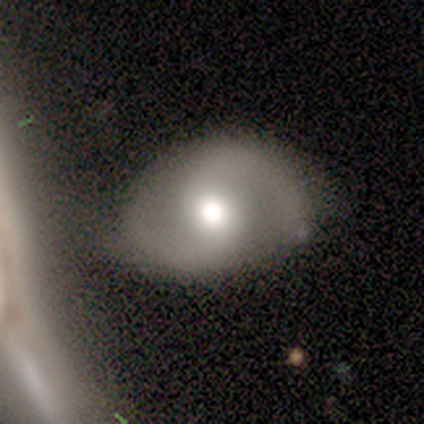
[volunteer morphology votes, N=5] Volunteers were most divided on "smooth or featured": featured or disk: 60%, smooth: 40%, star or artifact: 0%. More confident: edge-on disk — no (100%); spiral arms — yes (100%); spiral winding — medium (100%); spiral arm count — 2 (100%); bulge size — moderate (100%); merging — none (80%); bar — no (67%).